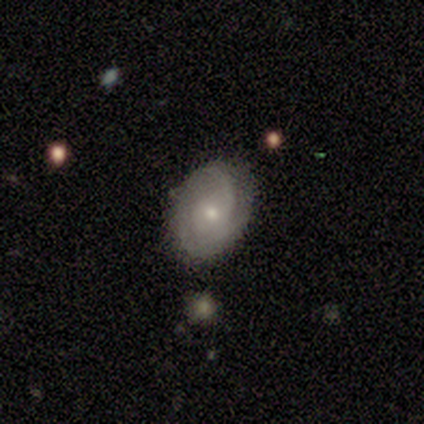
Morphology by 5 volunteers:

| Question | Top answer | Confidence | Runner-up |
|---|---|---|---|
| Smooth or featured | featured or disk | 80% | smooth (20%) |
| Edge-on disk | no | 100% | — |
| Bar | no | 75% | weak (25%) |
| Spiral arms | yes | 100% | — |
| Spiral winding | loose | 50% | tight (25%) |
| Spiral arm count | can't tell | 50% | 1 (25%) |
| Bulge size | small | 50% | large (25%) |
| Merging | none | 60% | minor disturbance (40%) |